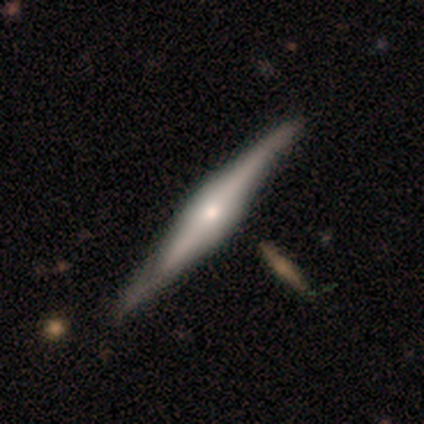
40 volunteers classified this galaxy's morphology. Smooth or featured: featured or disk — 88% (smooth — 10%)
Edge-on disk: yes — 100%
Edge-on bulge: rounded — 60% (boxy — 40%)
Merging: none — 56% (minor disturbance — 8%)